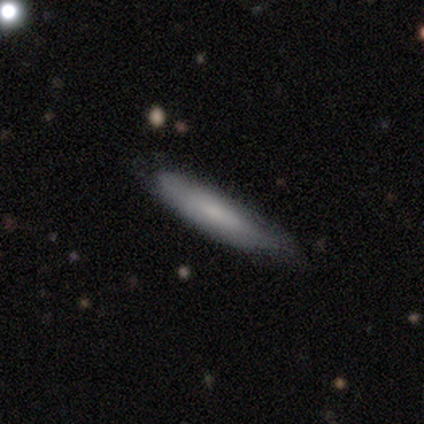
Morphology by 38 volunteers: Volunteers were most divided on "merging": none: 65%, minor disturbance: 32%, major disturbance: 3%, merger: 0%. More confident: how rounded — cigar-shaped (74%); smooth or featured — smooth (71%).